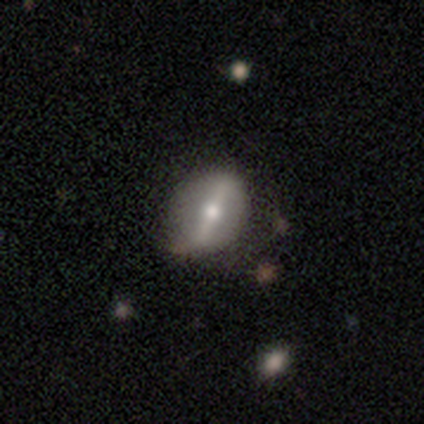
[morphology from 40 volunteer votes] Smooth or featured: featured or disk — 75% (smooth — 18%)
Edge-on disk: no — 83% (yes — 17%)
Bar: strong — 84% (weak — 16%)
Spiral arms: no — 80% (yes — 20%)
Bulge size: moderate — 68% (small — 32%)
Merging: none — 41% (minor disturbance — 16%)